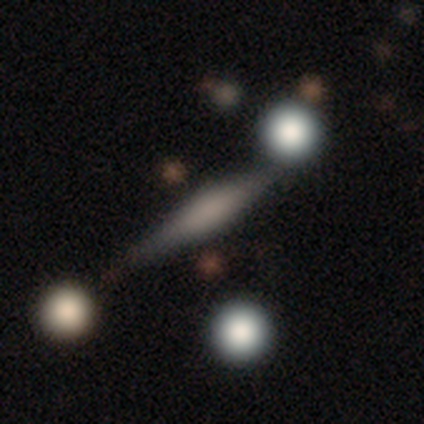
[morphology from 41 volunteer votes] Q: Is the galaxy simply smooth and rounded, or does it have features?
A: smooth — 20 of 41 (49%).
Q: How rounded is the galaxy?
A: cigar-shaped — 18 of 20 (90%).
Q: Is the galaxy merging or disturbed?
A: none — 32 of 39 (82%).